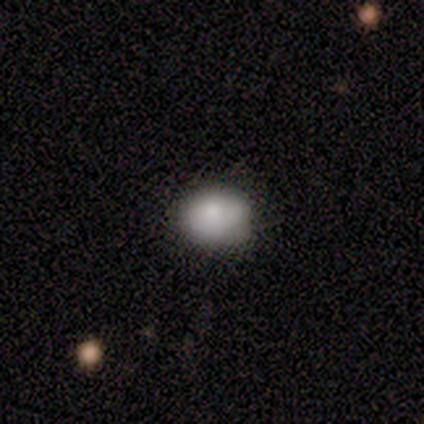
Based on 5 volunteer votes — Volunteers were most divided on "smooth or featured": smooth: 60%, featured or disk: 40%, star or artifact: 0%. More confident: merging — none (80%); how rounded — in between (67%).